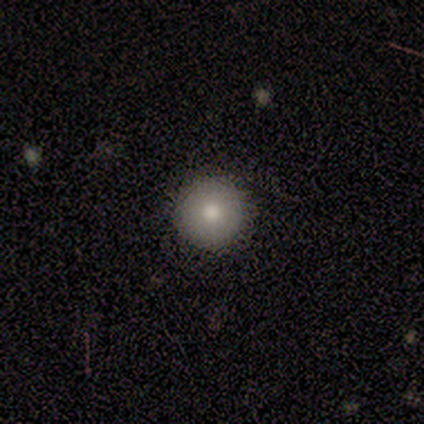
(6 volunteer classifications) Smooth or featured? 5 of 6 (83%) said smooth. How rounded? 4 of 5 (80%) said round. Merging? 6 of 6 (100%) said none.